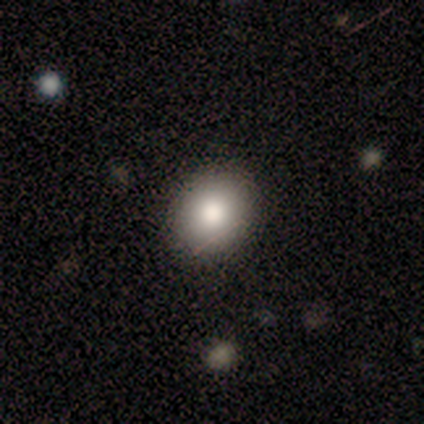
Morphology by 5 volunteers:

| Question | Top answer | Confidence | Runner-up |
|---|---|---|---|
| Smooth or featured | smooth | 80% | star or artifact (20%) |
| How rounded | round | 75% | in between (25%) |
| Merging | none | 75% | major disturbance (25%) |